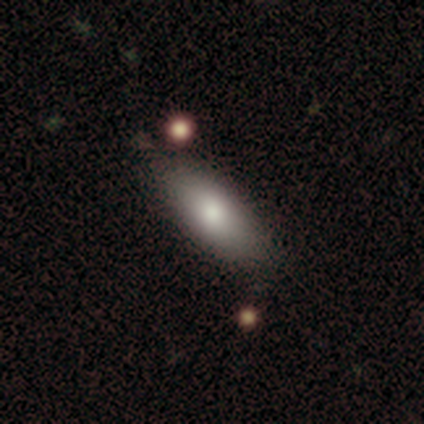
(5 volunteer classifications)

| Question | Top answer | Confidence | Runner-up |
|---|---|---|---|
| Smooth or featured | smooth | 60% | featured or disk (20%) |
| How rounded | in between | 100% | — |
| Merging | none | 75% | minor disturbance (25%) |